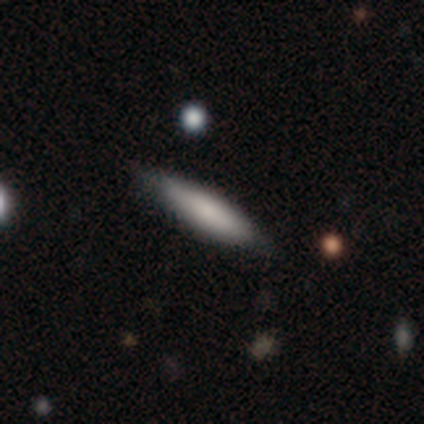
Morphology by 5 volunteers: A smooth galaxy with no disk features (60%) that is cigar-shaped (100%). Merging: none (80%).